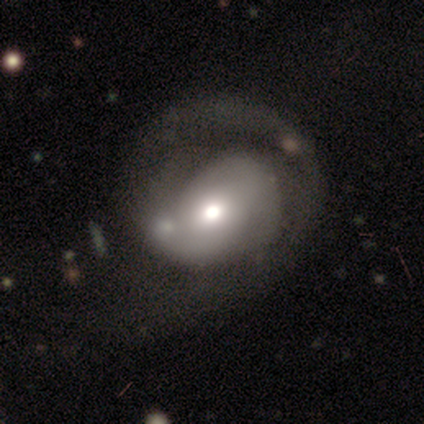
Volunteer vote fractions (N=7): This is clearly a smooth galaxy (86%). How rounded: possibly round (50%, tied with in between). Merging: clearly major disturbance (86%).